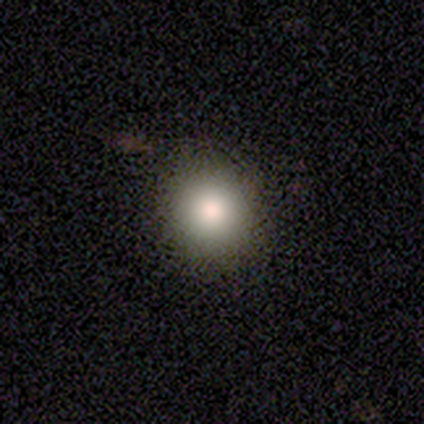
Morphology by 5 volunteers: Q: Smooth or featured?
A: smooth (80%); runner-up: star or artifact (20%)
Q: How rounded?
A: round (100%)
Q: Merging?
A: none (100%)